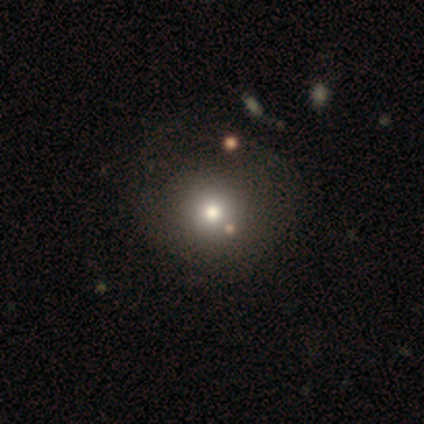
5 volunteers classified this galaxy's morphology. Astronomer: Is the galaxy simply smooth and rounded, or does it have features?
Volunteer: smooth — 100%.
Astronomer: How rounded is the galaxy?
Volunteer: round — 100%.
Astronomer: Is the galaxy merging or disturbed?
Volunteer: none — 40%, tied with minor disturbance at 40%.